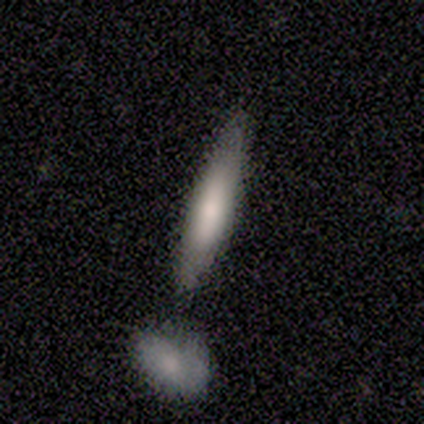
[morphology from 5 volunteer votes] This is clearly a smooth galaxy (80%). How rounded: likely cigar-shaped (75%). Merging: marginally none (40%, tied with major disturbance).